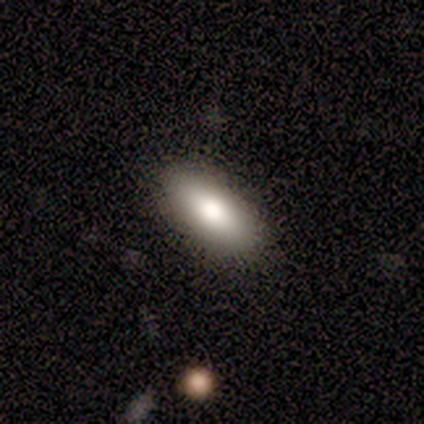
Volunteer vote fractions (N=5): smooth-or-featured: smooth: 80% | featured or disk: 20% | star or artifact: 0%
  how-rounded: in between: 100% | round: 0% | cigar-shaped: 0%
  merging: none: 80% | minor disturbance: 20% | major disturbance: 0% | merger: 0%